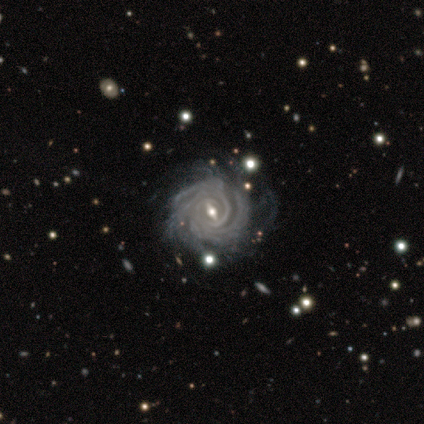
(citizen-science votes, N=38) Smooth or featured? 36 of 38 (95%) said featured or disk. Edge-on disk? 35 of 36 (97%) said no. Bar? 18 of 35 (51%) said weak. Spiral arms? 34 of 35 (97%) said yes. Spiral winding? 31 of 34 (91%) said tight. Spiral arm count? 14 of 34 (41%) said can't tell. Bulge size? 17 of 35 (49%) said small. Merging? 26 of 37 (70%) said none.